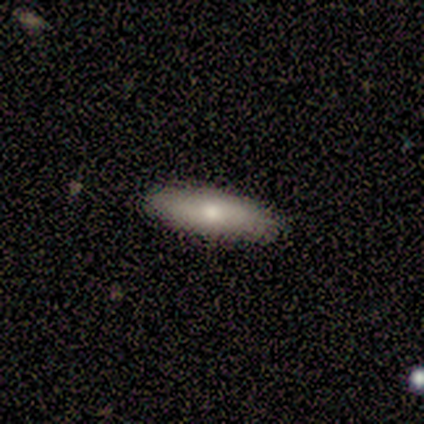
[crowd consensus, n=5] A smooth galaxy with no disk features (80%) that is in between round and cigar-shaped (50%, tied with cigar-shaped).

Vote fractions:
- Smooth or featured? smooth: 80% / featured or disk: 20% / star or artifact: 0%
- How rounded? in between: 50% (tied) / cigar-shaped: 50% (tied) / round: 0%
- Merging? none: 100% / minor disturbance: 0% / major disturbance: 0% / merger: 0%